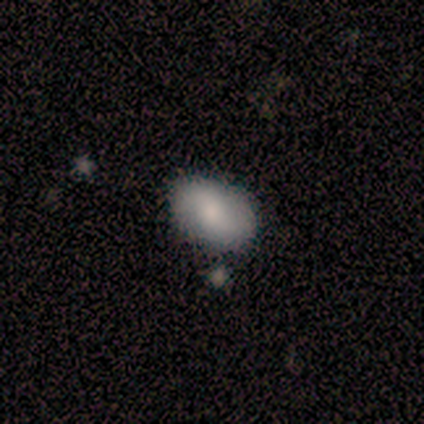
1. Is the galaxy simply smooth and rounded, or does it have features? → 64% smooth, 36% featured or disk, 0% star or artifact.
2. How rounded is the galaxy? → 100% in between, 0% round, 0% cigar-shaped.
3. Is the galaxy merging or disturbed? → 79% none, 21% minor disturbance, 0% major disturbance, 0% merger.